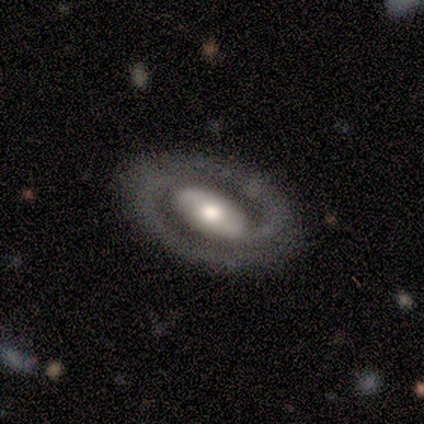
Volunteers were most divided on "bulge size" (2-way tie): large: 50%, moderate: 50%, dominant: 0%, small: 0%, none: 0%. More confident: edge-on disk — no (100%); smooth or featured — featured or disk (80%); spiral arms — yes (75%); spiral winding — tight (67%); spiral arm count — 2 (67%); merging — none (60%); bar — no (50%).